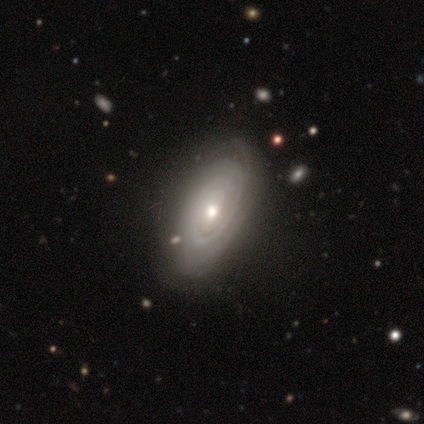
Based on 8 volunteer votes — A featured or disk galaxy (100%) with no bar (62%), tight (100%) spiral arms (100%) and a moderate central bulge (75%).

Vote fractions:
- Smooth or featured? featured or disk: 100% / smooth: 0% / star or artifact: 0%
- Edge-on disk? no: 100% / yes: 0%
- Bar? no: 62% / weak: 38% / strong: 0%
- Spiral arms? yes: 100% / no: 0%
- Spiral winding? tight: 100% / medium: 0% / loose: 0%
- Spiral arm count? can't tell: 50% / 1: 25% / 3: 12% / more than 4: 12% / 2: 0% / 4: 0%
- Bulge size? moderate: 75% / large: 12% / small: 12% / dominant: 0% / none: 0%
- Merging? none: 88% / minor disturbance: 12% / major disturbance: 0% / merger: 0%